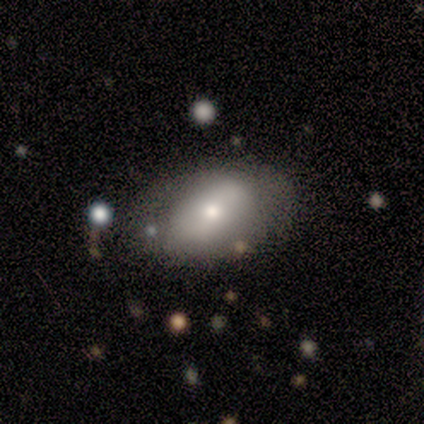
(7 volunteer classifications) A featured or disk galaxy (57%) with no bar (75%), no spiral arms (75%) and a moderate central bulge (50%). Merging: none (50%, tied with minor disturbance).